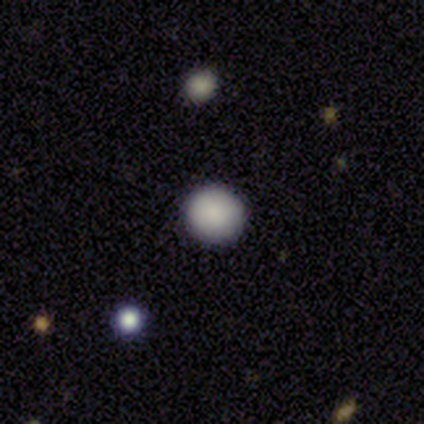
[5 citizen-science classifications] A smooth galaxy with no disk features (80%) that is round (100%). Merging: none (75%).